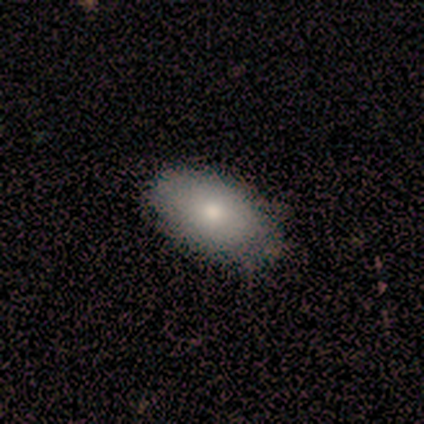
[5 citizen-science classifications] A smooth galaxy with no disk features (100%) that is in between round and cigar-shaped (100%). Merging: none (80%).